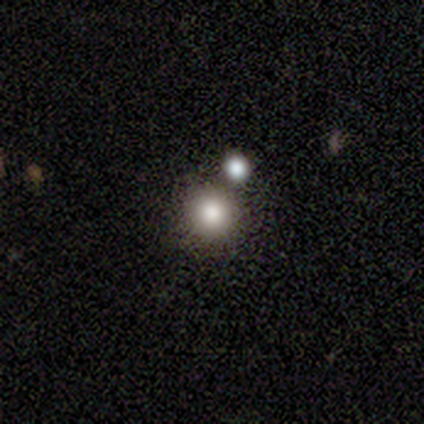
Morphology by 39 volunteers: smooth 82%, star or artifact 15%, featured or disk 3%. Down the decision tree: how rounded — round (97%); merging — none (76%).